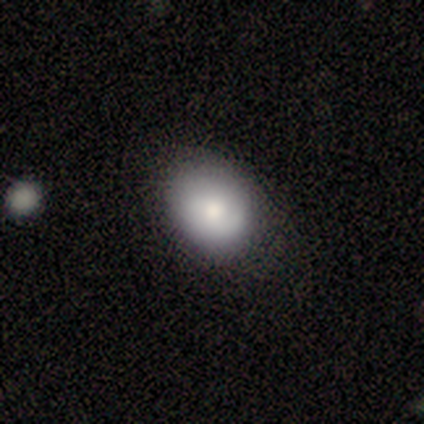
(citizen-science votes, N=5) Smooth or featured? smooth (100%)
How rounded? in between (60%)
Merging? none (80%)